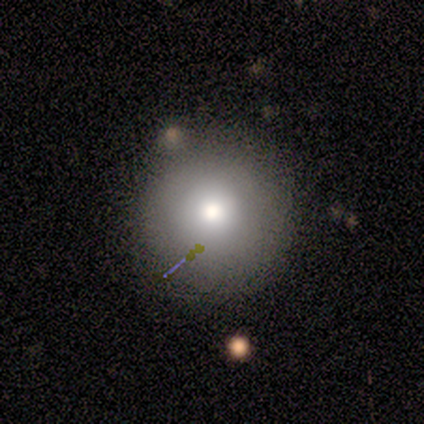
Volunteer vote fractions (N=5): A smooth galaxy with no disk features (60%) that is round (100%).

Vote fractions:
- Smooth or featured? smooth: 60% / featured or disk: 20% / star or artifact: 20%
- How rounded? round: 100% / in between: 0% / cigar-shaped: 0%
- Merging? none: 75% / minor disturbance: 25% / major disturbance: 0% / merger: 0%